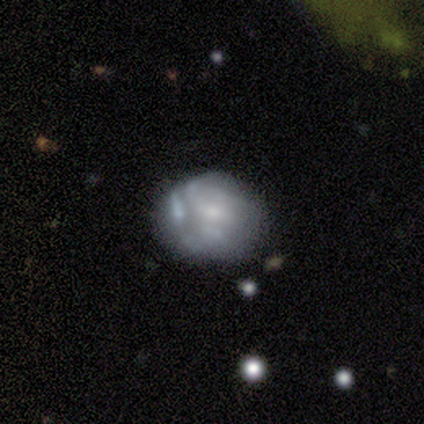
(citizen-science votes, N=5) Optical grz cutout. It shows a smooth galaxy with no disk features (60%) that is in between round and cigar-shaped (100%). Merging: none (80%).